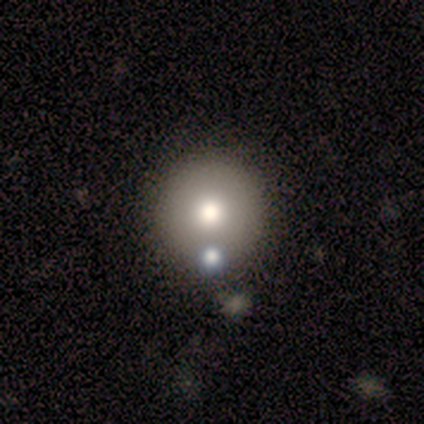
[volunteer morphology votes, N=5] This appears to be a smooth galaxy with no disk features (60%) that is round (100%). Merging: none (100%).